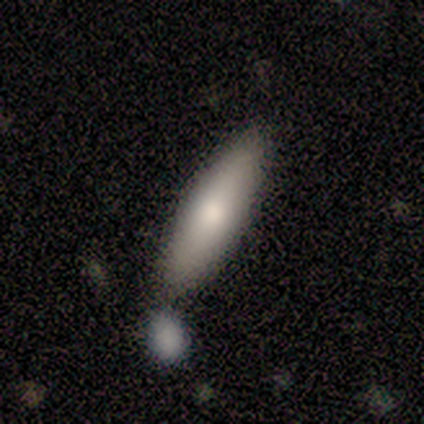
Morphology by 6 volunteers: smooth_or_featured: smooth (p=0.83) [alt: star or artifact p=0.17]
how_rounded: cigar-shaped (p=0.80) [alt: in between p=0.20]
merging: none (p=0.60) [alt: minor disturbance p=0.20]